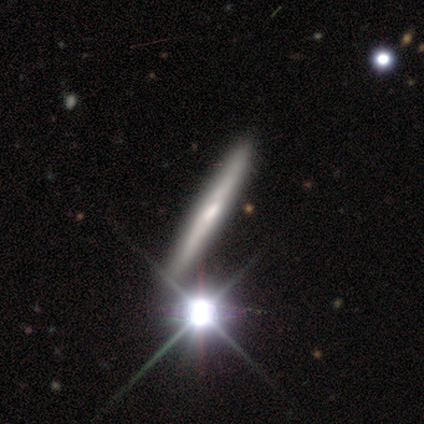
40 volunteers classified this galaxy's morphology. This appears to be a featured or disk galaxy (48%) viewed edge-on (89%) with no central bulge (47%). Merging: none (70%).